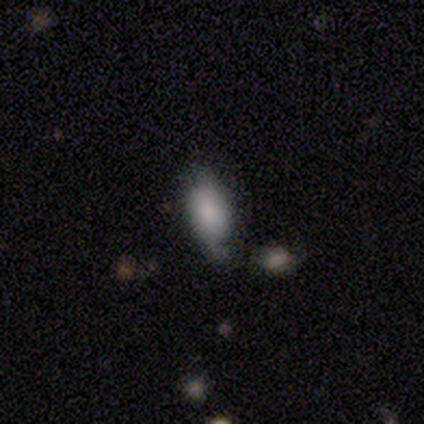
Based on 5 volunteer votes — Volunteers were most divided on "smooth or featured": smooth: 60%, featured or disk: 40%, star or artifact: 0%. More confident: how rounded — in between (100%); merging — minor disturbance (60%).